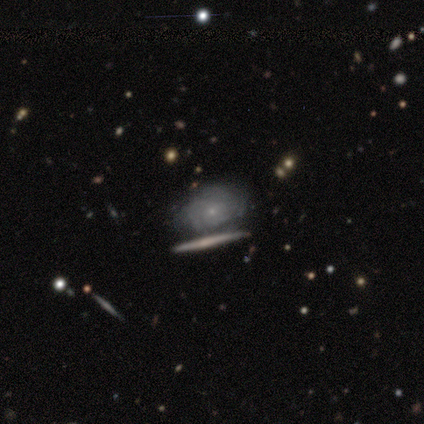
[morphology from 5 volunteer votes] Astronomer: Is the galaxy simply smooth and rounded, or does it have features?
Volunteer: featured or disk — 80%.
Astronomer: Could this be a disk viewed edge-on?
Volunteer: no — 100%.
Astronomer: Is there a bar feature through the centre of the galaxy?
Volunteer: no — 100%.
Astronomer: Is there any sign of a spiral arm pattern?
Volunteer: yes — 75%.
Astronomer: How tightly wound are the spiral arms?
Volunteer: tight — 100%.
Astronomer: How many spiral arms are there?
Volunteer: can't tell — 67%.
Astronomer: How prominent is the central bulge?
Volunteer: small — 100%.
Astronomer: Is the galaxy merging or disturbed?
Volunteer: none — 50%.